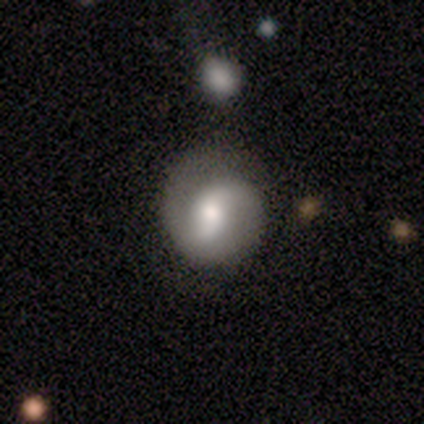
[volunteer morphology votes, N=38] Q: Smooth or featured?
A: featured or disk (76%); runner-up: smooth (21%)
Q: Edge-on disk?
A: no (93%); runner-up: yes (7%)
Q: Bar?
A: no (44%); runner-up: weak (41%)
Q: Spiral arms?
A: yes (85%); runner-up: no (15%)
Q: Spiral winding?
A: tight (48%); runner-up: loose (35%)
Q: Spiral arm count?
A: 2 (91%); runner-up: 1 (9%)
Q: Bulge size?
A: moderate (63%); runner-up: large (19%)
Q: Merging?
A: none (62%); runner-up: minor disturbance (16%)